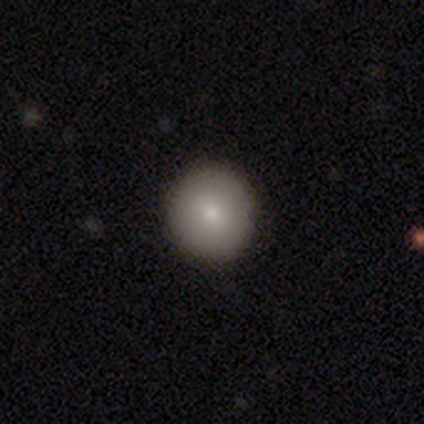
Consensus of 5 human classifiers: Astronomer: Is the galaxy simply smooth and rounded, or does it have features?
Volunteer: smooth — 100%.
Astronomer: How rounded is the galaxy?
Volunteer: round — 100%.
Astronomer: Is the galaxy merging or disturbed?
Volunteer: none — 80%.